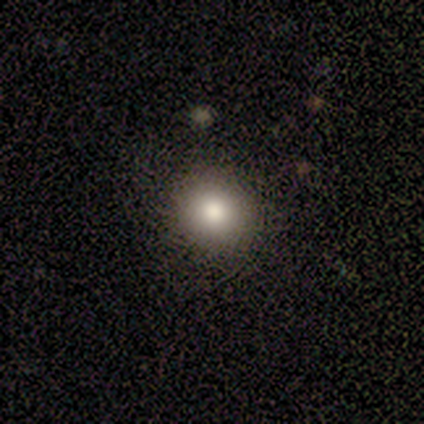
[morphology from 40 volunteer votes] This is clearly a smooth galaxy (88%). How rounded: clearly round (91%). Merging: likely none (72%).